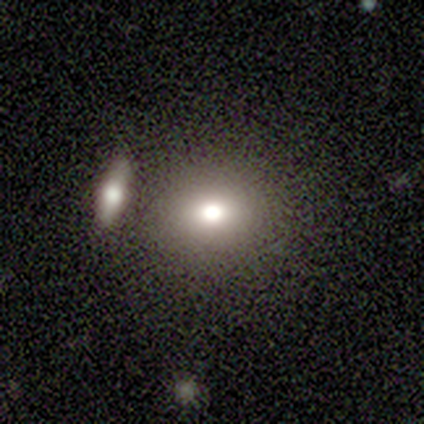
smooth 60%, featured or disk 40%, star or artifact 0%. Down the decision tree: how rounded — round (100%); merging — none (80%).